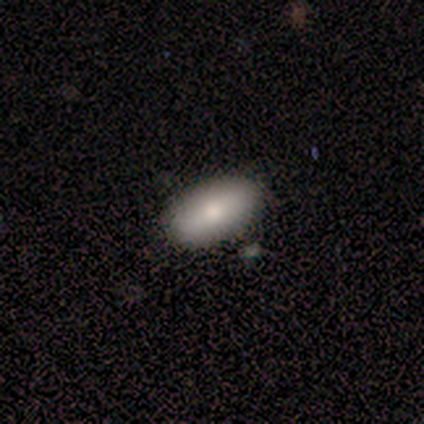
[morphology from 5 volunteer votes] smooth_or_featured: smooth (p=1.00)
how_rounded: in between (p=1.00)
merging: none (p=0.80) [alt: minor disturbance p=0.20]